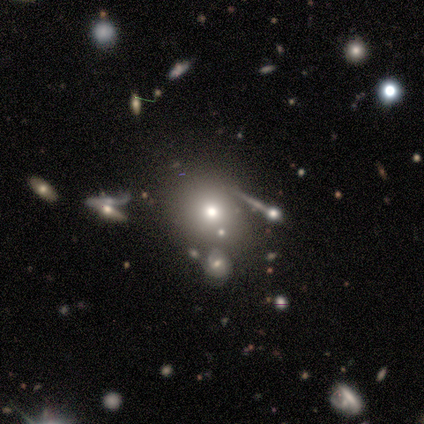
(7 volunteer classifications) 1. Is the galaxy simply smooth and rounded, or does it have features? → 71% smooth, 29% star or artifact, 0% featured or disk.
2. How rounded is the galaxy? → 60% round, 40% in between, 0% cigar-shaped.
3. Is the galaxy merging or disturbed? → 100% none, 0% minor disturbance, 0% major disturbance, 0% merger.